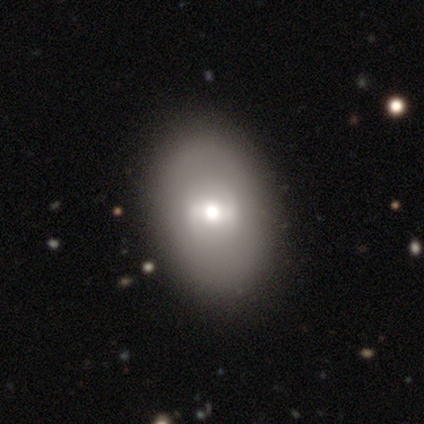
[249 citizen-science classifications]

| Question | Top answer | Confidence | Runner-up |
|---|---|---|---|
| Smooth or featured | smooth | 68% | featured or disk (20%) |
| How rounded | in between | 81% | round (17%) |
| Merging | none | 74% | minor disturbance (14%) |